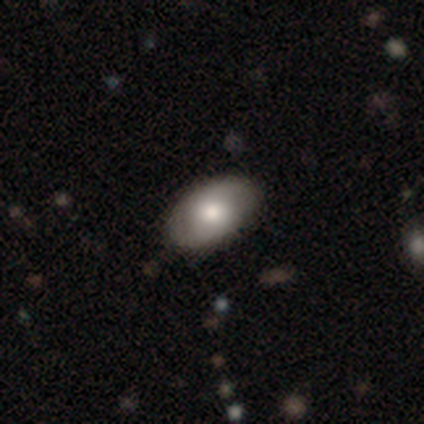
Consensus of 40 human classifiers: Smooth or featured? 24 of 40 (60%) said smooth. How rounded? 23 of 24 (96%) said in between. Merging? 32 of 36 (89%) said none.